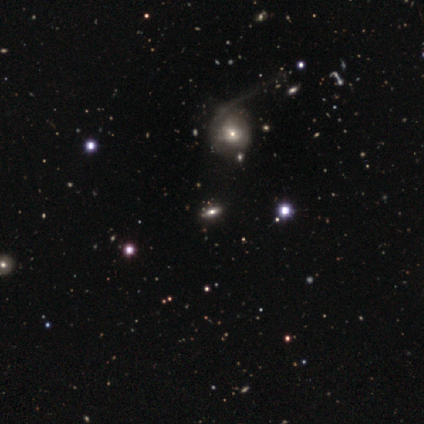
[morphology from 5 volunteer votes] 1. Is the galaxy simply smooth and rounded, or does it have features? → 60% featured or disk, 40% star or artifact, 0% smooth.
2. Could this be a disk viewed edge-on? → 67% yes, 33% no.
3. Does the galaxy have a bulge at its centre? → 100% rounded, 0% boxy, 0% none.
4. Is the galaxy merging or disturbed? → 67% major disturbance, 33% none, 0% minor disturbance, 0% merger.